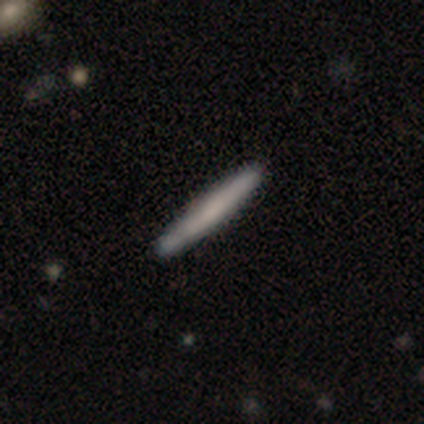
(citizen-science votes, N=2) A smooth galaxy with no disk features (50%, tied with featured or disk) that is cigar-shaped (100%). Merging: none (50%, tied with minor disturbance).